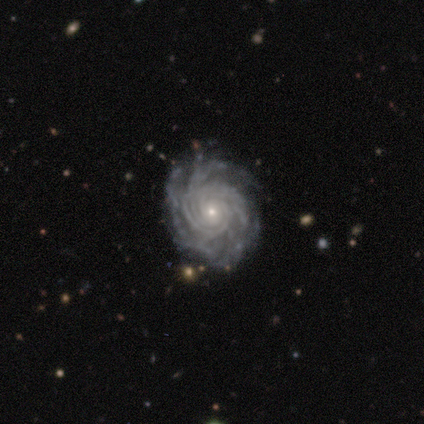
Smooth or featured? 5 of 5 (100%) said featured or disk. Edge-on disk? 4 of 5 (80%) said no. Bar? 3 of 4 (75%) said no. Spiral arms? 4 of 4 (100%) said yes. Spiral winding? 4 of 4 (100%) said tight. Spiral arm count? 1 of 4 (25%, tied with 4, more than 4 and can't tell) said 3. Bulge size? 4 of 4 (100%) said small. Merging? 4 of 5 (80%) said none.